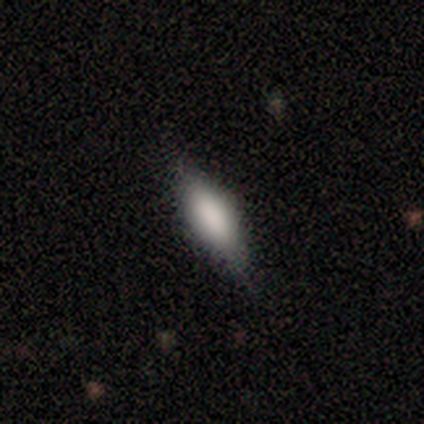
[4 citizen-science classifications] Volunteers were most divided on "how rounded" (2-way tie): in between: 50%, cigar-shaped: 50%, round: 0%. More confident: merging — none (67%); smooth or featured — smooth (50%).